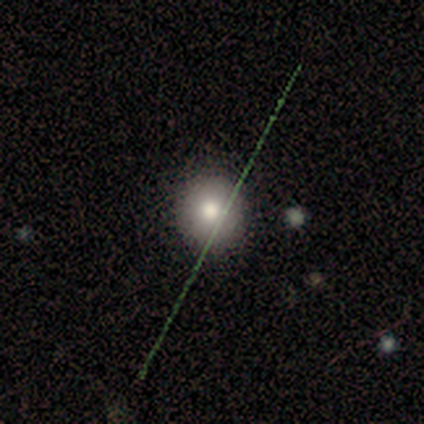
Smooth or featured? smooth (100%)
How rounded? round (100%)
Merging? none (100%)